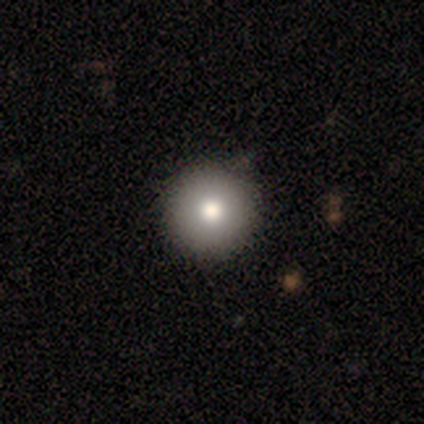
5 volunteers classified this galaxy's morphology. Volunteers were most divided on "smooth or featured": smooth: 80%, star or artifact: 20%, featured or disk: 0%. More confident: how rounded — round (100%); merging — none (100%).